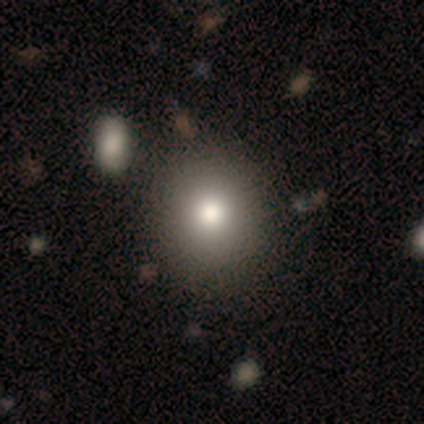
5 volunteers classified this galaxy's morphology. Smooth or featured? 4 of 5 (80%) said smooth. How rounded? 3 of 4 (75%) said round. Merging? 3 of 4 (75%) said none.